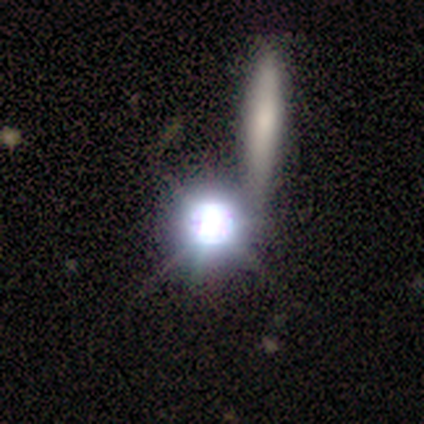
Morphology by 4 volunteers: A star or artifact, not a galaxy (75%).

Vote fractions:
- Smooth or featured? star or artifact: 75% / smooth: 25% / featured or disk: 0%